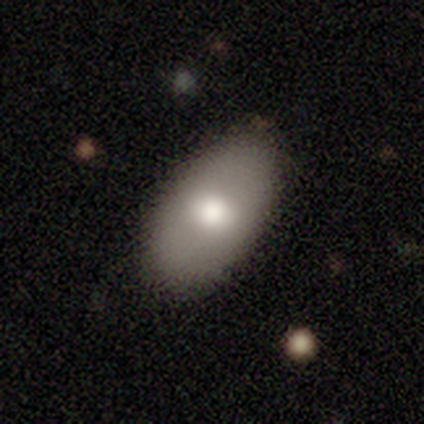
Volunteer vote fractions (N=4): Smooth or featured: featured or disk — 75% (smooth — 25%)
Edge-on disk: no — 100%
Bar: no — 100%
Spiral arms: no — 100%
Bulge size: moderate — 100%
Merging: none — 75% (minor disturbance — 25%)